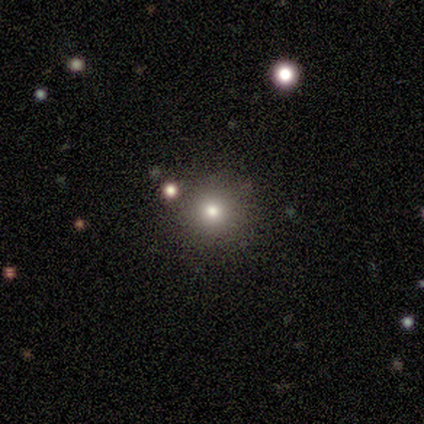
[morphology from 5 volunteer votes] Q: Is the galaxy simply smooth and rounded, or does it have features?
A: smooth — 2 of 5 (40%, tied with star or artifact).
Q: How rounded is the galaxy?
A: round — 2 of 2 (100%).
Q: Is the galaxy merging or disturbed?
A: none — 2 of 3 (67%).